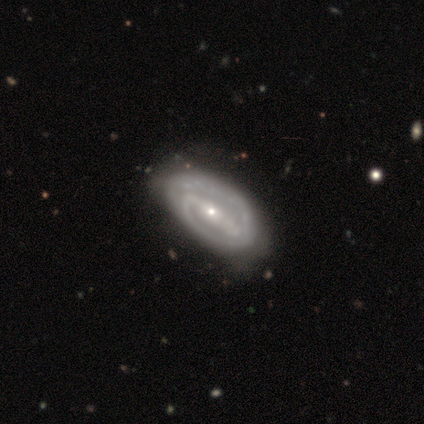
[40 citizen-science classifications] A featured or disk galaxy (88%) with a strong bar (85%), 2 (84%) tight (53%) spiral arms (97%) and a small central bulge (73%). Merging: none (59%).